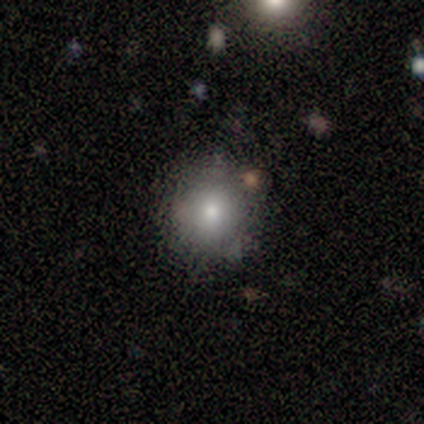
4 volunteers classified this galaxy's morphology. A smooth galaxy with no disk features (50%, tied with star or artifact) that is round (100%).

Vote fractions:
- Smooth or featured? smooth: 50% (tied) / star or artifact: 50% (tied) / featured or disk: 0%
- How rounded? round: 100% / in between: 0% / cigar-shaped: 0%
- Merging? none: 100% / minor disturbance: 0% / major disturbance: 0% / merger: 0%